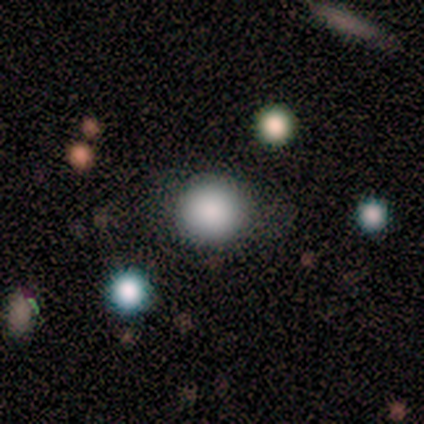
Overall: smooth (85%). How rounded: round (91%). Merging: none (79%).